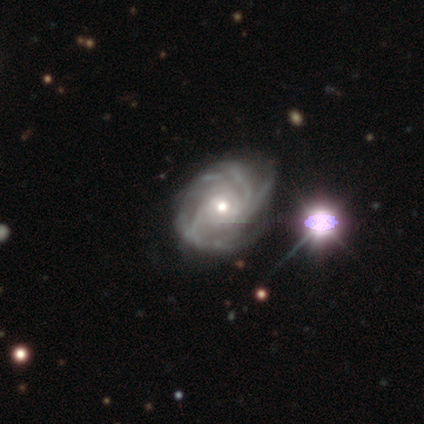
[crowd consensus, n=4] Smooth or featured? 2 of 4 (50%) said featured or disk. Edge-on disk? 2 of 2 (100%) said no. Bar? 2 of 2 (100%) said no. Spiral arms? 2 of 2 (100%) said yes. Spiral winding? 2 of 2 (100%) said medium. Spiral arm count? 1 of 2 (50%, tied with more than 4) said 3. Bulge size? 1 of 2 (50%, tied with small) said moderate. Merging? 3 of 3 (100%) said none.